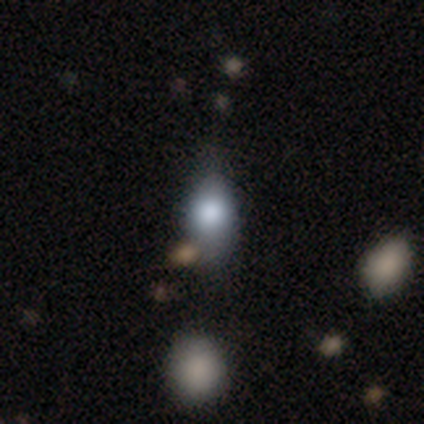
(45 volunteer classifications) A smooth galaxy with no disk features (64%) that is in between round and cigar-shaped (86%). Merging: none (62%).